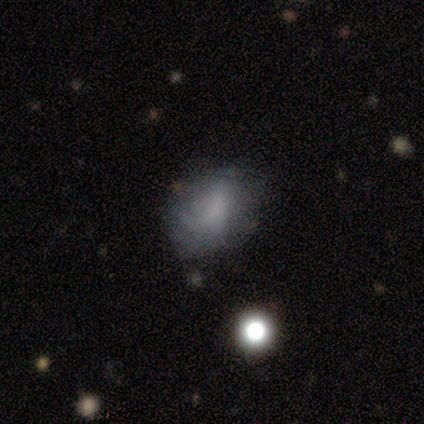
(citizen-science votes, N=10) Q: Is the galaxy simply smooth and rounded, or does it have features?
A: smooth — 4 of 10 (40%, tied with featured or disk).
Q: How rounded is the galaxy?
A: in between — 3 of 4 (75%).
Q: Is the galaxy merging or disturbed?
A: none — 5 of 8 (62%).